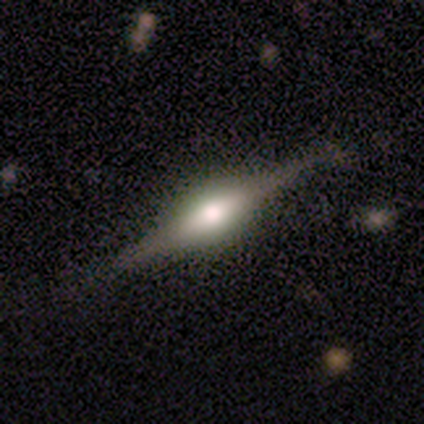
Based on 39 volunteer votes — smooth-or-featured: featured or disk: 77% | smooth: 21% | star or artifact: 3%
  disk-edge-on: yes: 100% | no: 0%
    edge-on-bulge: rounded: 87% | boxy: 13% | none: 0%
  merging: none: 61% | merger: 8% | major disturbance: 5% | minor disturbance: 3%